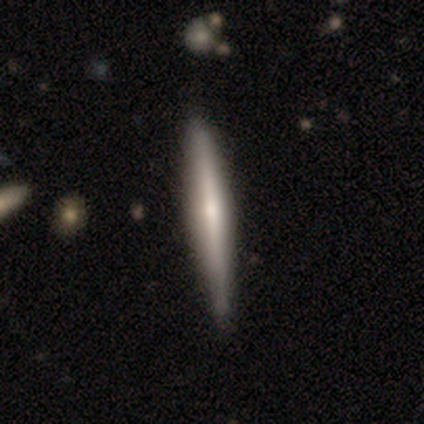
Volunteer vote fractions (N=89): Overall: featured or disk (71%). Edge-on disk: yes (97%). Edge-on bulge: rounded (69%). Merging: none (81%).